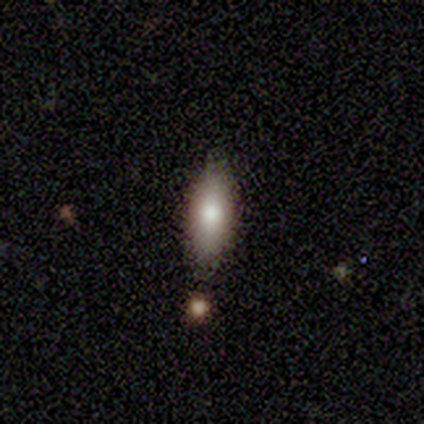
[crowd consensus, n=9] A smooth galaxy with no disk features (78%) that is in between round and cigar-shaped (71%).

Vote fractions:
- Smooth or featured? smooth: 78% / featured or disk: 22% / star or artifact: 0%
- How rounded? in between: 71% / cigar-shaped: 29% / round: 0%
- Merging? none: 100% / minor disturbance: 0% / major disturbance: 0% / merger: 0%